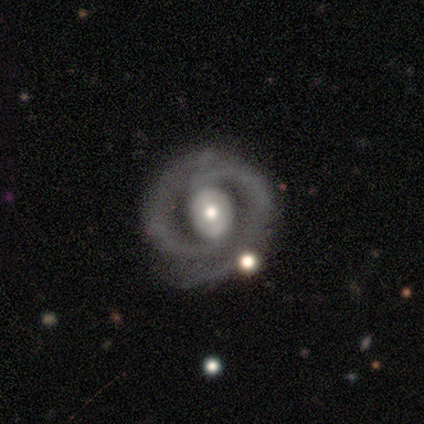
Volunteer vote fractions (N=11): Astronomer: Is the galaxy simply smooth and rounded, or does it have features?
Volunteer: featured or disk — 91%.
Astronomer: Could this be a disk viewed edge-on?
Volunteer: no — 100%.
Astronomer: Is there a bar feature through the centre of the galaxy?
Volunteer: no — 50% (runner-up: strong, 30%).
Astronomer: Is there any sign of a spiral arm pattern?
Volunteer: yes — 90%.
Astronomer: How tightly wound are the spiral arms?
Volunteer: tight — 67%.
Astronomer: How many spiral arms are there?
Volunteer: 2 — 78%.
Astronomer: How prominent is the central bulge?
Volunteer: moderate — 60%.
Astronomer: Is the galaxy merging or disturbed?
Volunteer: none — 45%, tied with minor disturbance at 45%.